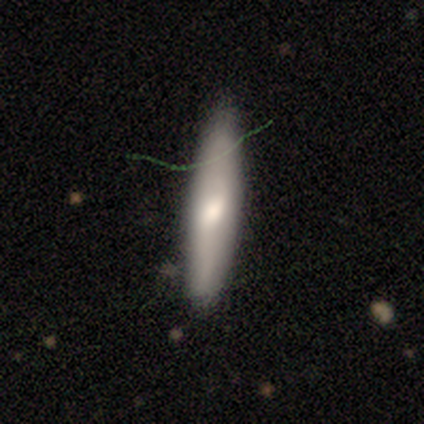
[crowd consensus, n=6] smooth 50%, star or artifact 33%, featured or disk 17%. Down the decision tree: how rounded — cigar-shaped (67%); merging — none (75%).